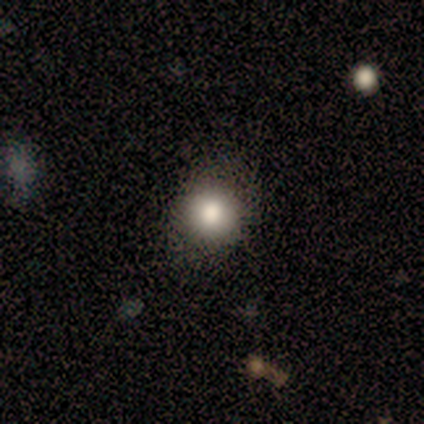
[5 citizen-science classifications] Smooth or featured? smooth (100%)
How rounded? round (80%)
Merging? none (100%)